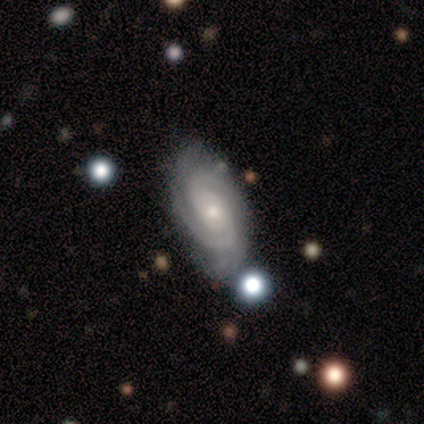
Volunteers were most divided on "spiral arm count": 2: 50%, can't tell: 33%, 3: 17%, 1: 0%, 4: 0%, more than 4: 0%. More confident: smooth or featured — featured or disk (100%); edge-on disk — no (100%); bar — no (100%); spiral arms — yes (100%); spiral winding — tight (67%); bulge size — small (67%); merging — none (67%).